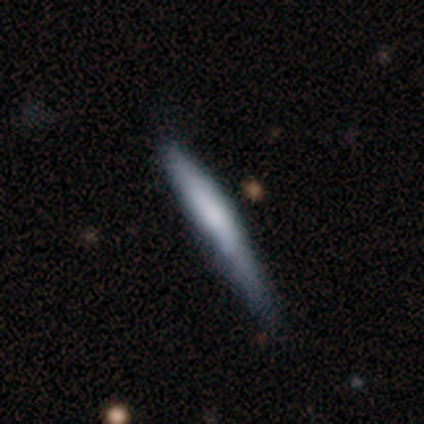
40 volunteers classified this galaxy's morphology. Q: Smooth or featured?
A: smooth (75%); runner-up: featured or disk (12%)
Q: How rounded?
A: cigar-shaped (97%); runner-up: round (3%)
Q: Merging?
A: none (57%); runner-up: minor disturbance (31%)